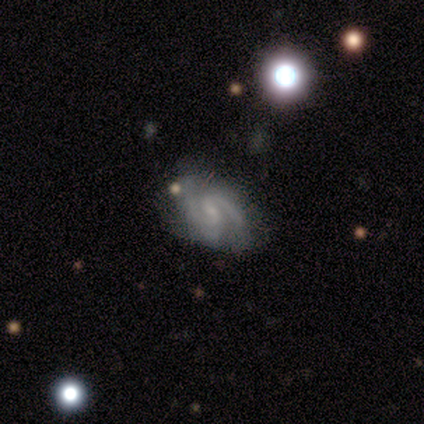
This appears to be a featured or disk galaxy (75%) with a strong bar (33%, tied with weak and no), 2 (100%) medium (50%, tied with loose) spiral arms (67%) and a small central bulge (67%). Merging: none (100%).